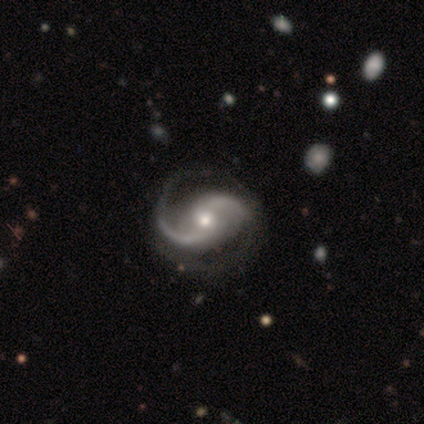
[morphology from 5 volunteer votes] Smooth or featured: featured or disk — 100%
Edge-on disk: no — 100%
Bar: no — 100%
Spiral arms: yes — 100%
Spiral winding: medium — 80% (loose — 20%)
Spiral arm count: 2 — 100%
Bulge size: moderate — 80% (large — 20%)
Merging: none — 100%